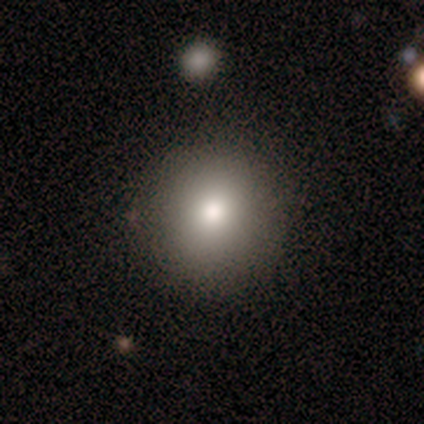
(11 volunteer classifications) This appears to be a smooth galaxy with no disk features (73%) that is round (88%). Merging: none (100%).